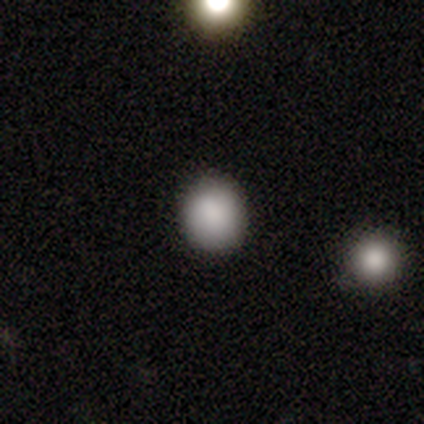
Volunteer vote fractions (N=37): This is clearly a smooth galaxy (81%). How rounded: clearly round (80%). Merging: clearly none (94%).